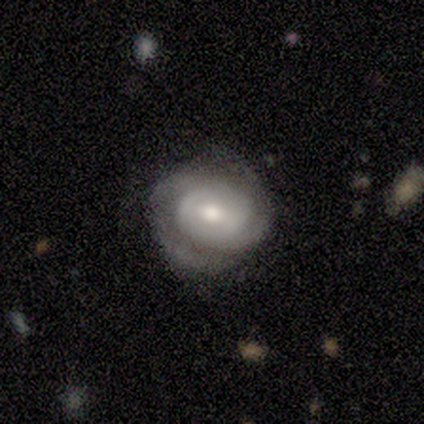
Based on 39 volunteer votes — Smooth or featured?
  - featured or disk: 90% *
  - smooth: 10%
  - star or artifact: 0%
Edge-on disk?
  - no: 97% *
  - yes: 3%
Bar?
  - no: 50% *
  - weak: 35%
  - strong: 15%
Spiral arms?
  - yes: 85% *
  - no: 15%
Spiral winding?
  - tight: 55% *
  - medium: 38%
  - loose: 7%
Spiral arm count?
  - 2: 69% *
  - can't tell: 14%
  - 3: 10%
  - 1: 3%
  - 4: 3%
  - more than 4: 0%
Bulge size?
  - moderate: 62% *
  - small: 21%
  - large: 15%
  - dominant: 3%
  - none: 0%
Merging?
  - none: 72% *
  - major disturbance: 15%
  - minor disturbance: 13%
  - merger: 0%